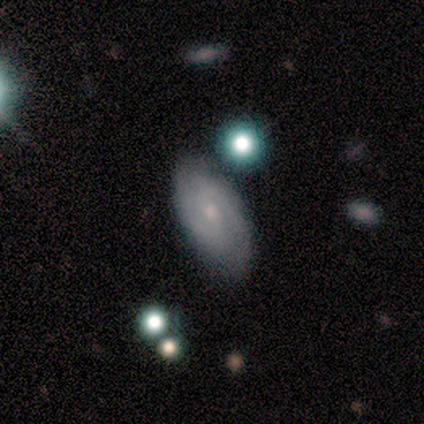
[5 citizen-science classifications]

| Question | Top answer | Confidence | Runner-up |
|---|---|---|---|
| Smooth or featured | featured or disk | 60% | smooth (20%) |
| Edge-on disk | no | 100% | — |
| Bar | strong | 33% | tied: weak (33%), no (33%) |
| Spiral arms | yes | 100% | — |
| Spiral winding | medium | 67% | tight (33%) |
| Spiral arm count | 2 | 100% | — |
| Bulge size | moderate | 67% | small (33%) |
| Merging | none | 50% | tied: minor disturbance (50%) |